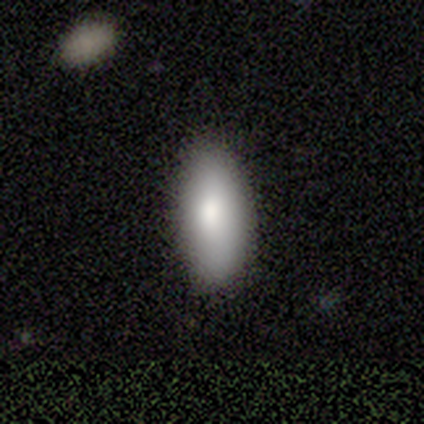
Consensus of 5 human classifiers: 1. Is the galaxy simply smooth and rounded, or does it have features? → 100% smooth, 0% featured or disk, 0% star or artifact.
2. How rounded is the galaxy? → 80% in between, 20% cigar-shaped, 0% round.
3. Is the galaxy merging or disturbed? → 80% none, 20% minor disturbance, 0% major disturbance, 0% merger.